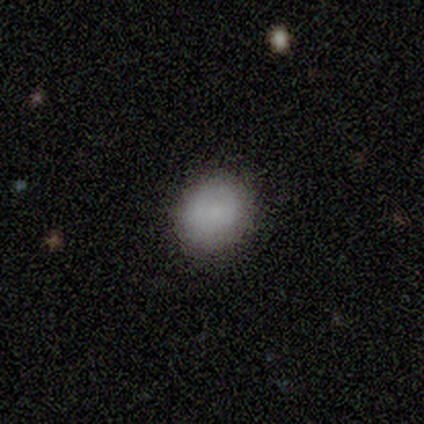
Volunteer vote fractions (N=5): Smooth or featured?
  - smooth: 80% *
  - featured or disk: 20%
  - star or artifact: 0%
How rounded?
  - round: 75% *
  - in between: 25%
  - cigar-shaped: 0%
Merging?
  - none: 100% *
  - minor disturbance: 0%
  - major disturbance: 0%
  - merger: 0%